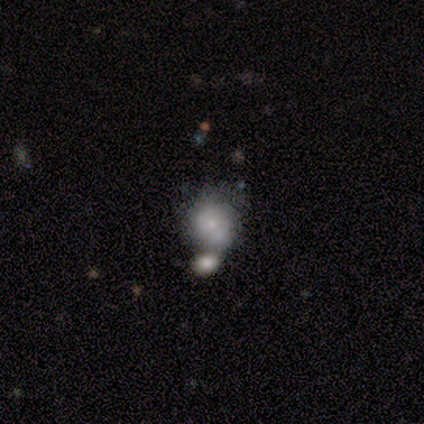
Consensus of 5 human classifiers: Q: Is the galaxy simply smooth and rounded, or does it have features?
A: smooth — 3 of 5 (60%).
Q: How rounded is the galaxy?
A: round — 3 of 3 (100%).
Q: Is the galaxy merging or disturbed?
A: merger — 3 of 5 (60%).